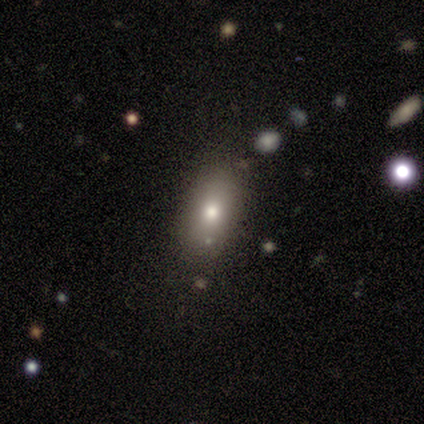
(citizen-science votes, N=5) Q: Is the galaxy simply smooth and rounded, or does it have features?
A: smooth — 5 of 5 (100%).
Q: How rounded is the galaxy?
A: in between — 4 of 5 (80%).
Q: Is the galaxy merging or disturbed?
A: none — 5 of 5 (100%).